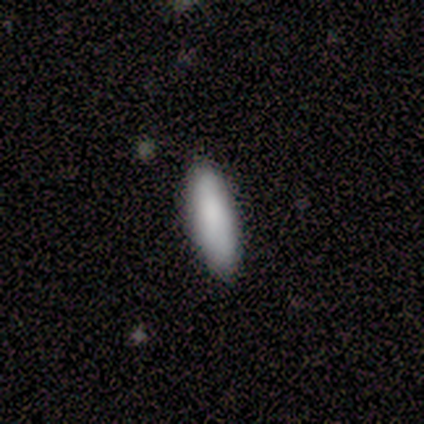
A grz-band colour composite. It shows a smooth galaxy with no disk features (100%) that is cigar-shaped (58%). Merging: none (83%).